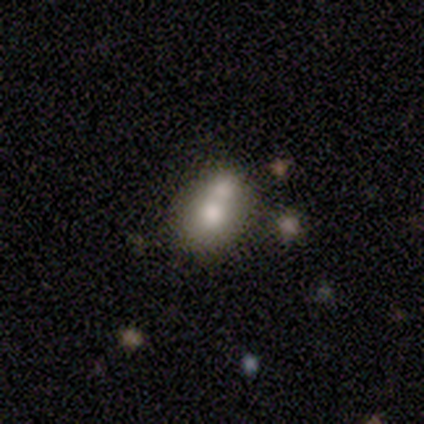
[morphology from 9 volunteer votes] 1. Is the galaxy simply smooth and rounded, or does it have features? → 67% smooth, 22% featured or disk, 11% star or artifact.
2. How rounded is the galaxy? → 67% in between, 33% round, 0% cigar-shaped.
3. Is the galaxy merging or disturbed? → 50% merger, 38% none, 12% minor disturbance, 0% major disturbance.